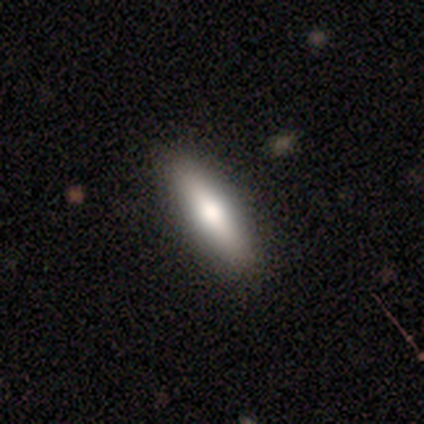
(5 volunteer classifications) Morphology: type=smooth (80%); roundness=cigar-shaped (75%); merging=none (100%).